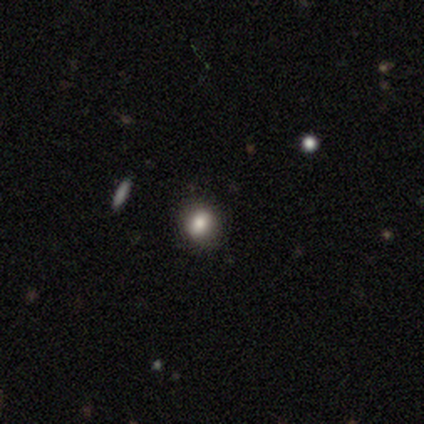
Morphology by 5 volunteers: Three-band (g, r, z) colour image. It shows a smooth galaxy with no disk features (80%) that is round (75%). Merging: none (100%).